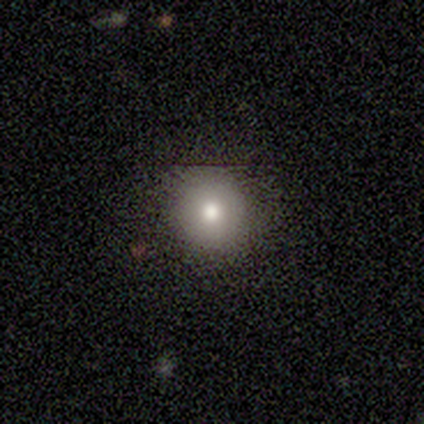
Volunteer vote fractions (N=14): smooth-or-featured: smooth: 79% | featured or disk: 14% | star or artifact: 7%
  how-rounded: round: 100% | in between: 0% | cigar-shaped: 0%
  merging: none: 92% | minor disturbance: 8% | major disturbance: 0% | merger: 0%